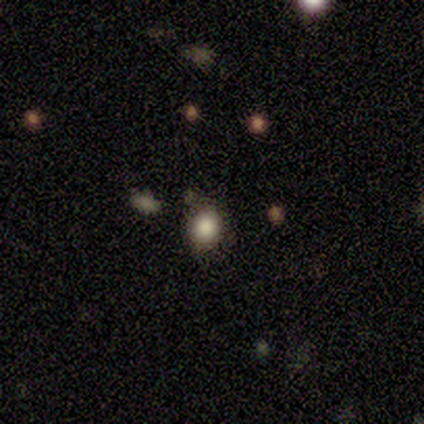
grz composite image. It shows a smooth galaxy with no disk features (78%) that is round (71%). Merging: none (75%).